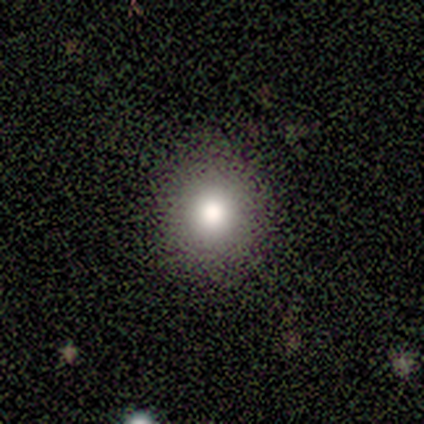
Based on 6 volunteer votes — smooth 67%, featured or disk 33%, star or artifact 0%. Down the decision tree: how rounded — round (100%); merging — none (83%).